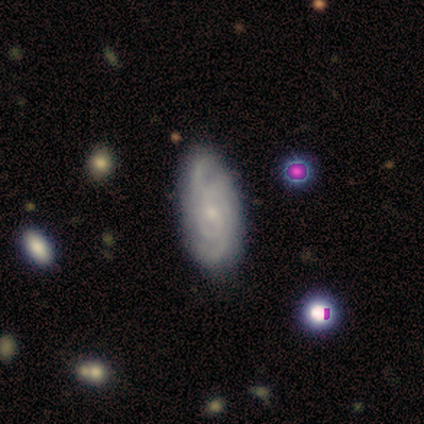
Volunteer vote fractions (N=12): This is likely a featured or disk galaxy (67%). It is clearly not viewed edge-on (88%). Bar: clearly no (100%). Spiral arm pattern: clearly yes (100%). Spiral arm count: marginally can't tell (43%). Spiral winding: possibly medium (57%). Central bulge: clearly small (100%). Merging: clearly none (82%).